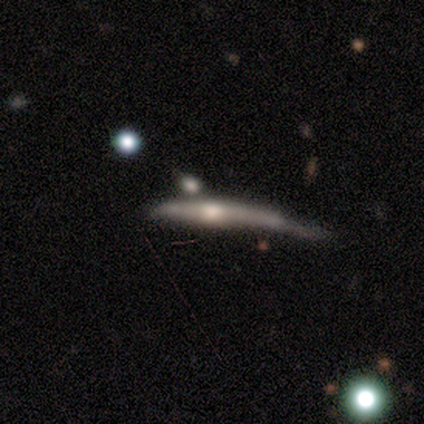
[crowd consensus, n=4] Smooth or featured? 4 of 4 (100%) said featured or disk. Edge-on disk? 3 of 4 (75%) said yes. Edge-on bulge? 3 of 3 (100%) said rounded. Merging? 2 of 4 (50%) said major disturbance.